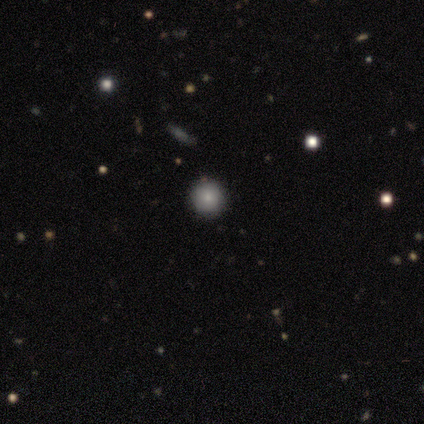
Smooth or featured? smooth (60%)
How rounded? round (100%)
Merging? none (100%)